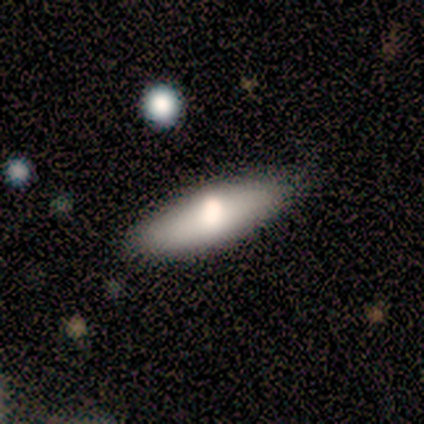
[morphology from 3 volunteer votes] Overall: smooth (100%). How rounded: in between (67%; cigar-shaped 33%). Merging: none (100%).